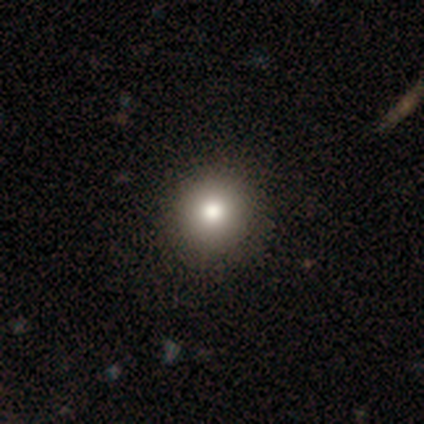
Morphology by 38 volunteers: Volunteers were most divided on "merging": none: 46%, merger: 5%, minor disturbance: 0%, major disturbance: 0%. More confident: how rounded — round (94%); smooth or featured — smooth (87%).